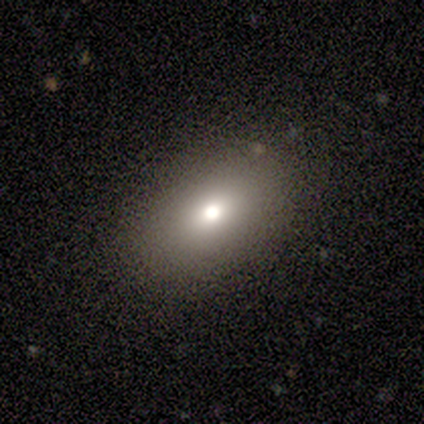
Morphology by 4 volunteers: Smooth or featured?
  - smooth: 100% *
  - featured or disk: 0%
  - star or artifact: 0%
How rounded?
  - in between: 75% *
  - round: 25%
  - cigar-shaped: 0%
Merging?
  - none: 100% *
  - minor disturbance: 0%
  - major disturbance: 0%
  - merger: 0%